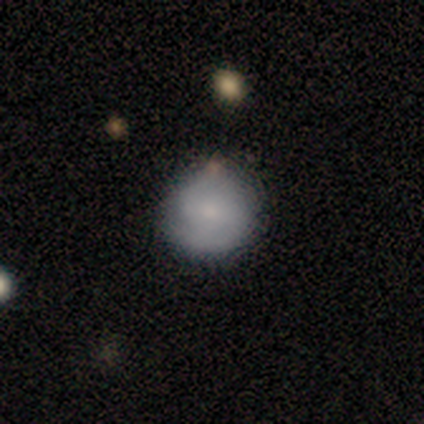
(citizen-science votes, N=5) This is clearly a featured or disk galaxy (100%). It is clearly not viewed edge-on (100%). Bar: likely no (60%). Spiral arm pattern: clearly yes (80%). Spiral arm count: clearly 2 (100%). Spiral winding: possibly tight (50%, tied with medium). Central bulge: clearly moderate (80%). Merging: marginally none (40%, tied with minor disturbance).